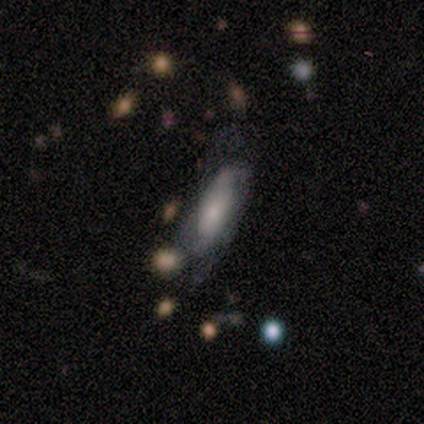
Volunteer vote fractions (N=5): A smooth galaxy with no disk features (80%) that is cigar-shaped (75%). Merging: minor disturbance (80%).